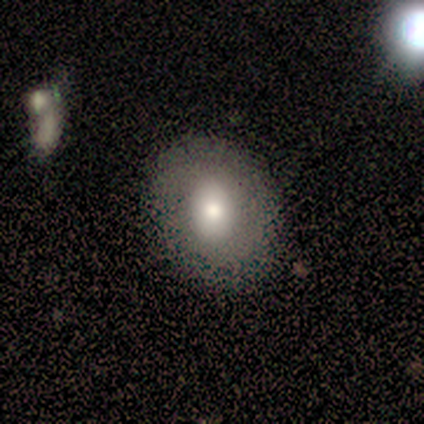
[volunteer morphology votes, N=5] This appears to be a smooth galaxy with no disk features (60%) that is round (100%). Merging: none (75%).